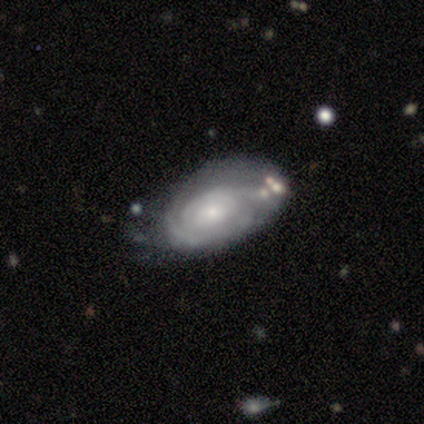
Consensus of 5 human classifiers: This is clearly a smooth galaxy (80%). How rounded: clearly in between (100%). Merging: likely none (60%).